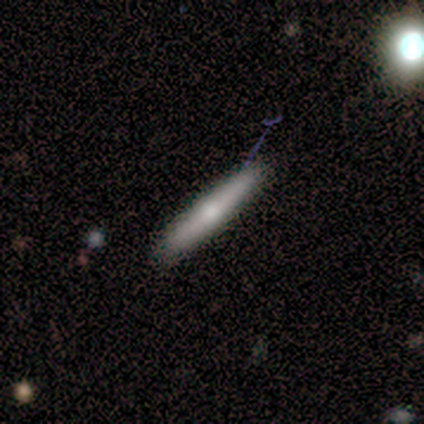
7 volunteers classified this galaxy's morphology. Volunteers were most divided on "smooth or featured" (2-way tie): smooth: 43%, featured or disk: 43%, star or artifact: 14%. More confident: how rounded — cigar-shaped (100%); merging — none (100%).